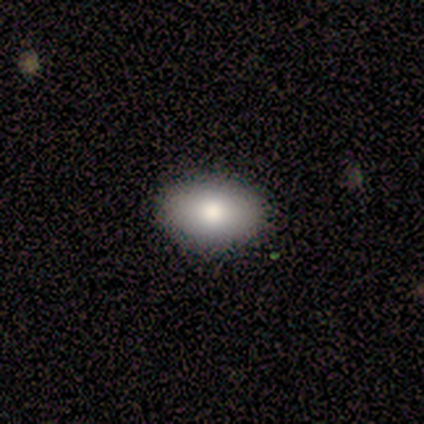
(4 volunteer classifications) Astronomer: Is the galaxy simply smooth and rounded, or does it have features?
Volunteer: smooth — 100%.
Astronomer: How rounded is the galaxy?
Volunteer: in between — 100%.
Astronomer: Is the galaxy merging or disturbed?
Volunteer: none — 100%.